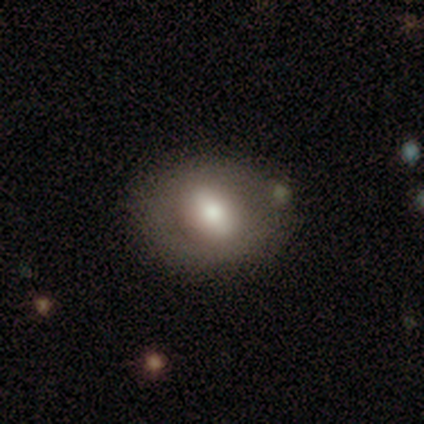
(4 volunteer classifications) smooth 50%, featured or disk 25%, star or artifact 25%. Down the decision tree: how rounded — in between (100%); merging — none (100%).